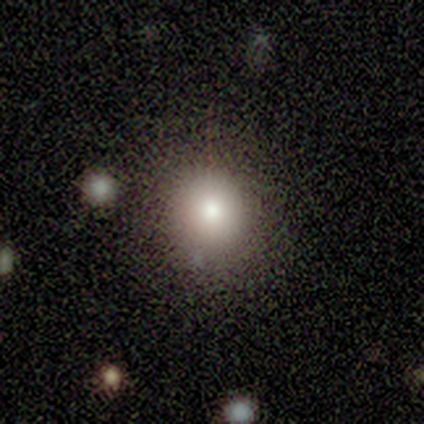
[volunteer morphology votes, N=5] Smooth or featured?
  - smooth: 100% *
  - featured or disk: 0%
  - star or artifact: 0%
How rounded?
  - round: 80% *
  - in between: 20%
  - cigar-shaped: 0%
Merging?
  - none: 80% *
  - minor disturbance: 20%
  - major disturbance: 0%
  - merger: 0%